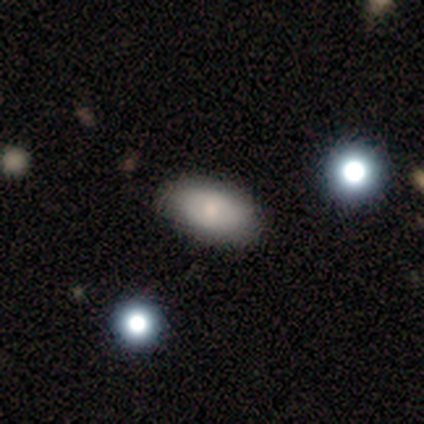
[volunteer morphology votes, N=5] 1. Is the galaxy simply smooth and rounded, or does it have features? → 60% smooth, 40% featured or disk, 0% star or artifact.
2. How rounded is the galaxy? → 100% in between, 0% round, 0% cigar-shaped.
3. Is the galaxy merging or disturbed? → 80% none, 20% minor disturbance, 0% major disturbance, 0% merger.